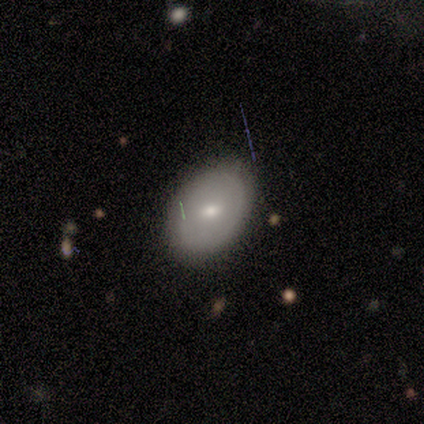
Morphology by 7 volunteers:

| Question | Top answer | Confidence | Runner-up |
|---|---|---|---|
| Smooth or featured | smooth | 57% | featured or disk (43%) |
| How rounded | in between | 100% | — |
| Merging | none | 71% | minor disturbance (29%) |